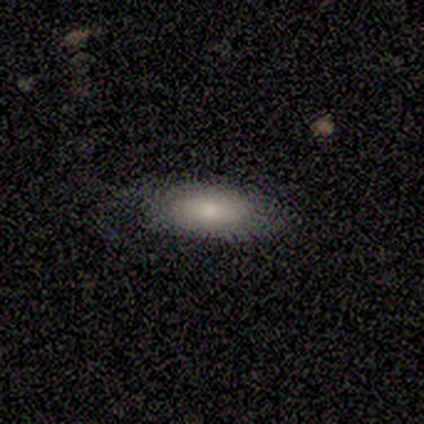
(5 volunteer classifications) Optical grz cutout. It shows a smooth galaxy with no disk features (80%) that is in between round and cigar-shaped (50%, tied with cigar-shaped). Merging: none (80%).